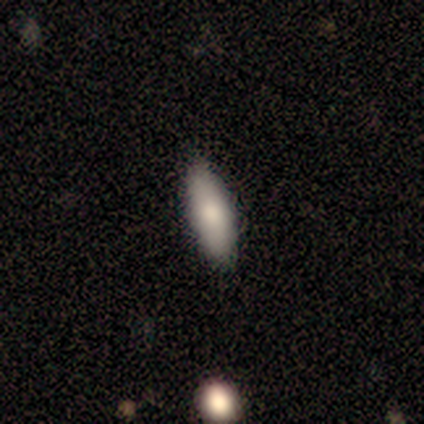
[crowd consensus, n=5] This appears to be a smooth galaxy with no disk features (80%) that is in between round and cigar-shaped (100%). Merging: none (80%).